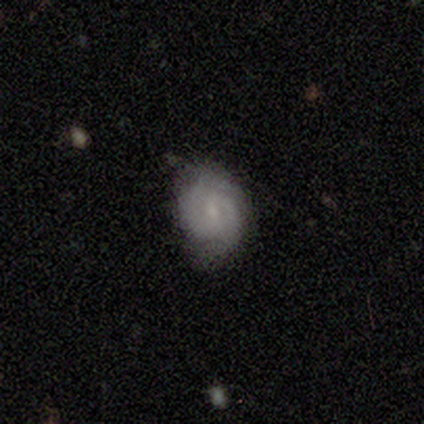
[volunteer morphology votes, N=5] smooth-or-featured: smooth: 60% | featured or disk: 40% | star or artifact: 0%
  how-rounded: in between: 100% | round: 0% | cigar-shaped: 0%
  merging: none: 80% | minor disturbance: 20% | major disturbance: 0% | merger: 0%